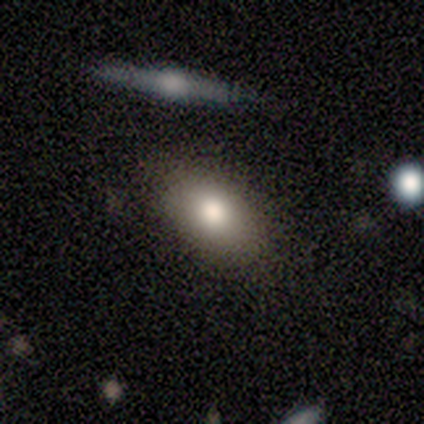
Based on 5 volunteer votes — smooth 80%, star or artifact 20%, featured or disk 0%. Down the decision tree: how rounded — in between (100%); merging — none (100%).